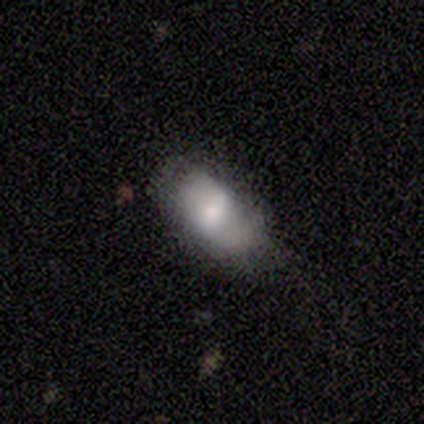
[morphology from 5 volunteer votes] type=featured or disk (60%); edge-on=no (100%); bar=weak (67%); spiral arms=no (67%); bulge=moderate (67%); merging=none (60%).